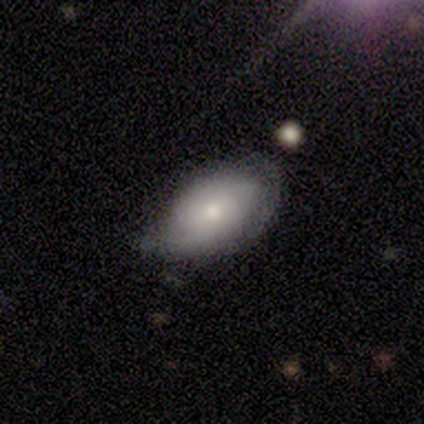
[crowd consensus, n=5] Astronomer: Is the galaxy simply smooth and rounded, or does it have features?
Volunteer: featured or disk — 60% (runner-up: smooth, 40%).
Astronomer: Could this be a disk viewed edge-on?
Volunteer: no — 100%.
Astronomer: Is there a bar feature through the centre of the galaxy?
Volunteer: no — 67%.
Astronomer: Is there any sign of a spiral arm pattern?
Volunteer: no — 67%.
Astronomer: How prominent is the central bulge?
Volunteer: small — 67%.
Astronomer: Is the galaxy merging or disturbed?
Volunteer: minor disturbance — 100%.